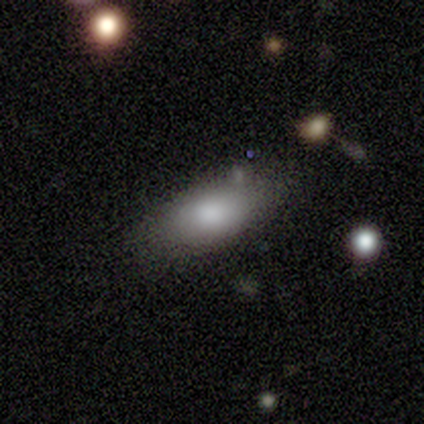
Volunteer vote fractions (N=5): This appears to be a smooth galaxy with no disk features (100%) that is in between round and cigar-shaped (100%). Merging: none (60%).